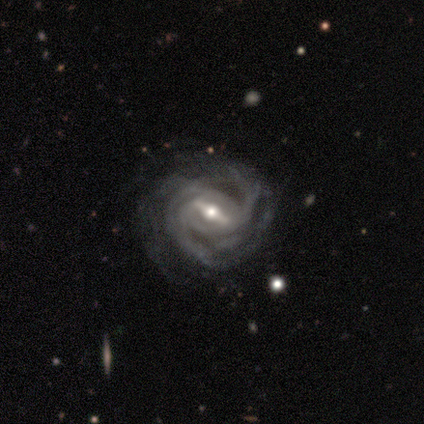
A featured or disk galaxy (99%) with a strong bar (68%), medium (48%) spiral arms (100%) and a moderate central bulge (71%).

Vote fractions:
- Smooth or featured? featured or disk: 99% / star or artifact: 1% / smooth: 0%
- Edge-on disk? no: 99% / yes: 1%
- Bar? strong: 68% / weak: 27% / no: 4%
- Spiral arms? yes: 100% / no: 0%
- Spiral winding? medium: 48% / tight: 45% / loose: 7%
- Spiral arm count? can't tell: 29% / 2: 27% / 3: 19% / 4: 12% / more than 4: 12% / 1: 0%
- Bulge size? moderate: 71% / small: 19% / large: 8% / dominant: 1% / none: 0%
- Merging? none: 28% / minor disturbance: 15% / major disturbance: 8% / merger: 1%